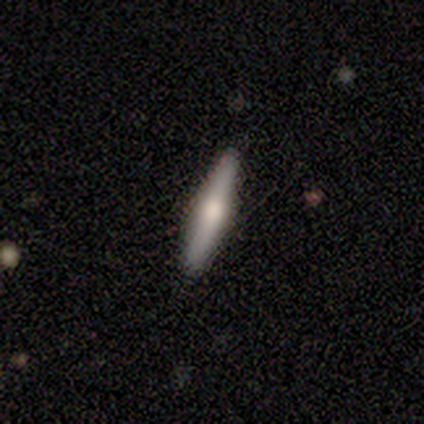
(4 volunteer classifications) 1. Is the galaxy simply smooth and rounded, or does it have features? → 50% smooth (tied), 50% featured or disk (tied), 0% star or artifact.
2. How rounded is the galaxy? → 100% cigar-shaped, 0% round, 0% in between.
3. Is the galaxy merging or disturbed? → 100% none, 0% minor disturbance, 0% major disturbance, 0% merger.